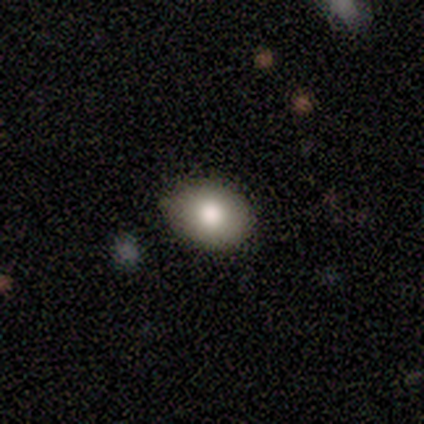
smooth-or-featured: smooth: 57% | featured or disk: 29% | star or artifact: 14%
  how-rounded: in between: 50% | round: 25% | cigar-shaped: 25%
  merging: none: 100% | minor disturbance: 0% | major disturbance: 0% | merger: 0%